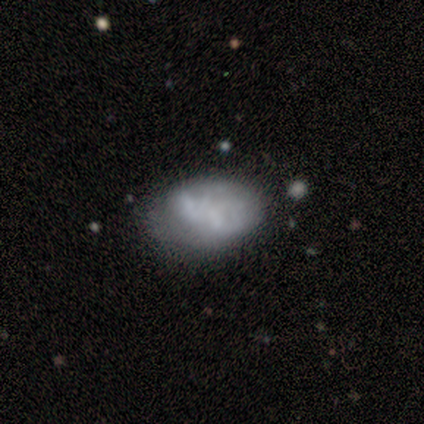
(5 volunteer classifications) smooth 60%, featured or disk 40%, star or artifact 0%. Down the decision tree: how rounded — in between (100%); merging — minor disturbance (60%).